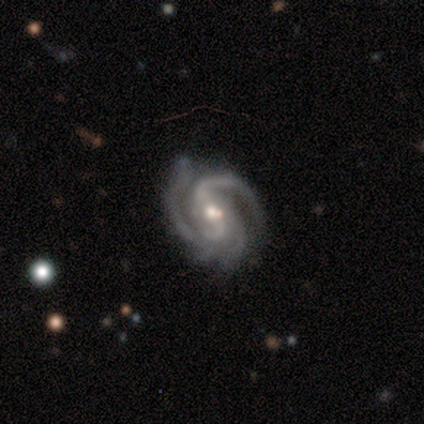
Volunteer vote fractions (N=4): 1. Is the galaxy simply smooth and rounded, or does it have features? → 100% featured or disk, 0% smooth, 0% star or artifact.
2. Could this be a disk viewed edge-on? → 100% no, 0% yes.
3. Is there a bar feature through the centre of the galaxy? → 50% strong (tied), 50% weak (tied), 0% no.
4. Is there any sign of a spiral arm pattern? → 100% yes, 0% no.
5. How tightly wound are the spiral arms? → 75% medium, 25% tight, 0% loose.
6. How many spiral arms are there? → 75% 3, 25% 2, 0% 1, 0% 4, 0% more than 4, 0% can't tell.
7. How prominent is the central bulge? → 50% moderate (tied), 50% small (tied), 0% dominant, 0% large, 0% none.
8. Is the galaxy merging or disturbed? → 50% none (tied), 50% minor disturbance (tied), 0% major disturbance, 0% merger.